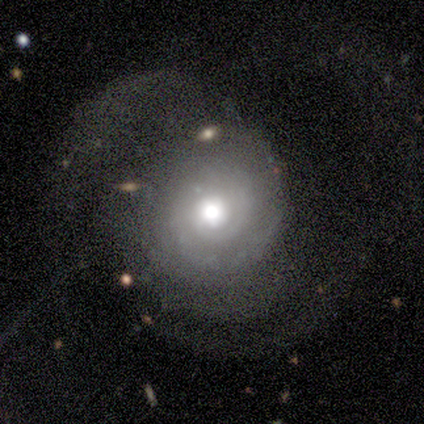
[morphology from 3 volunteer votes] Smooth or featured?
  - featured or disk: 100% *
  - smooth: 0%
  - star or artifact: 0%
Edge-on disk?
  - no: 67% *
  - yes: 33%
Bar?
  - weak: 50% * (tied)
  - no: 50% * (tied)
  - strong: 0%
Spiral arms?
  - yes: 100% *
  - no: 0%
Spiral winding?
  - medium: 50% * (tied)
  - loose: 50% * (tied)
  - tight: 0%
Spiral arm count?
  - 3: 50% * (tied)
  - more than 4: 50% * (tied)
  - 1: 0%
  - 2: 0%
  - 4: 0%
  - can't tell: 0%
Bulge size?
  - moderate: 100% *
  - dominant: 0%
  - large: 0%
  - small: 0%
  - none: 0%
Merging?
  - major disturbance: 67% *
  - none: 33%
  - minor disturbance: 0%
  - merger: 0%